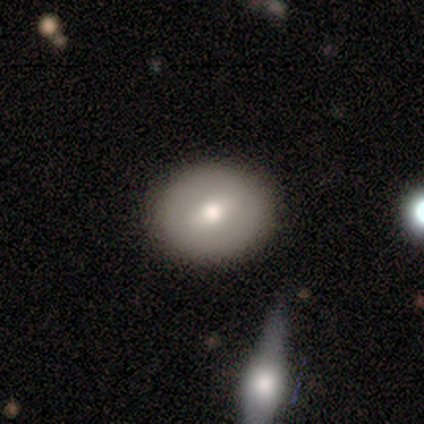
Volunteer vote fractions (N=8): Smooth or featured?
  - smooth: 62% *
  - featured or disk: 38%
  - star or artifact: 0%
How rounded?
  - round: 60% *
  - in between: 40%
  - cigar-shaped: 0%
Merging?
  - none: 88% *
  - minor disturbance: 12%
  - major disturbance: 0%
  - merger: 0%